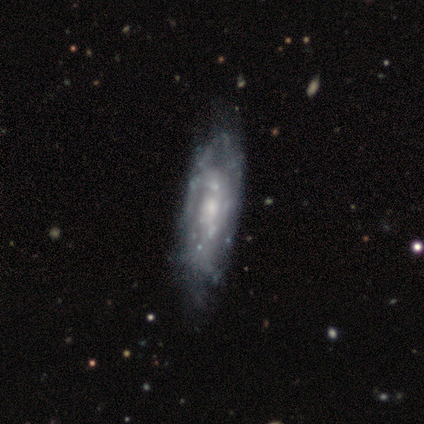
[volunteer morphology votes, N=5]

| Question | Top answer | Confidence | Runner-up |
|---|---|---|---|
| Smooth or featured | featured or disk | 80% | star or artifact (20%) |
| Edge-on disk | no | 100% | — |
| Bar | no | 100% | — |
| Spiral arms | yes | 75% | no (25%) |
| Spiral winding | tight | 67% | medium (33%) |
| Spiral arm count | can't tell | 67% | 2 (33%) |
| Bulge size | small | 50% | moderate (25%) |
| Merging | none | 50% | tied: minor disturbance (50%) |